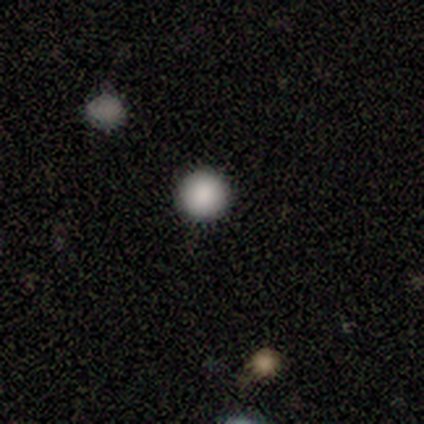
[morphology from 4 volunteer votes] smooth_or_featured: smooth (p=0.75) [alt: star or artifact p=0.25]
how_rounded: round (p=1.00)
merging: none (p=1.00)